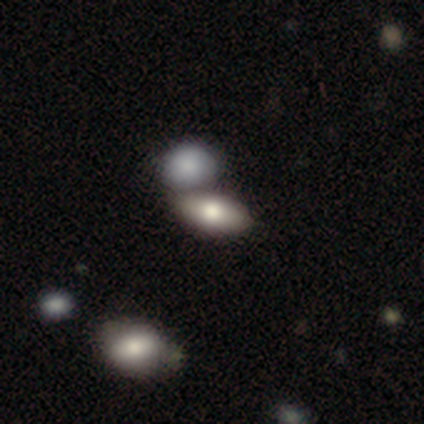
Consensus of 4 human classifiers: Morphology: type=smooth (75%); roundness=in between (100%); merging=none (50%, tied with merger).